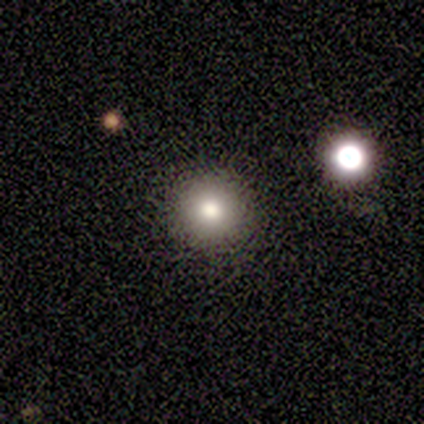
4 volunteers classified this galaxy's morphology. This appears to be a smooth galaxy with no disk features (75%) that is round (67%). Merging: none (100%).